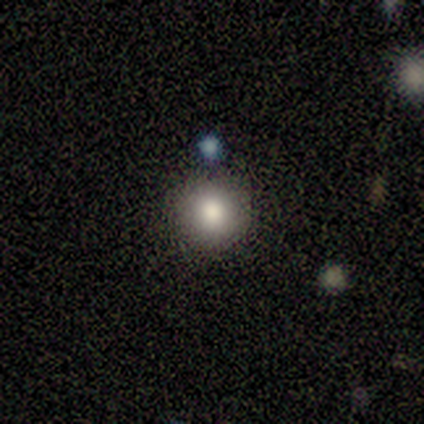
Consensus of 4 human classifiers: Overall: smooth (100%). How rounded: round (75%). Merging: none (100%).